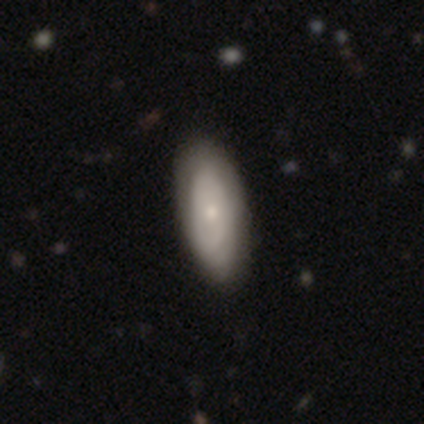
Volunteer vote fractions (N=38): This appears to be a featured or disk galaxy (58%) with no bar (85%), no spiral arms (55%) and a small central bulge (45%). Merging: none (50%).